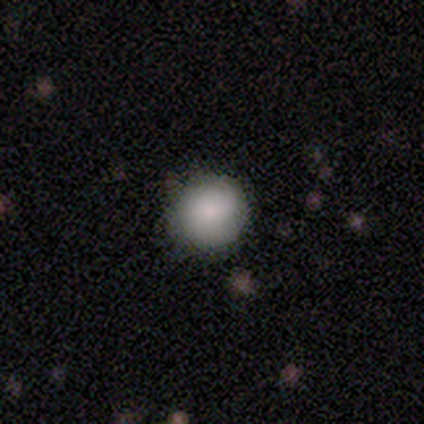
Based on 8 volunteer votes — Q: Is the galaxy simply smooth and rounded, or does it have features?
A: smooth — 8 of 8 (100%).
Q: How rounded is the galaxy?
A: round — 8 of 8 (100%).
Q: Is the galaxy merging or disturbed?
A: none — 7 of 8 (88%).